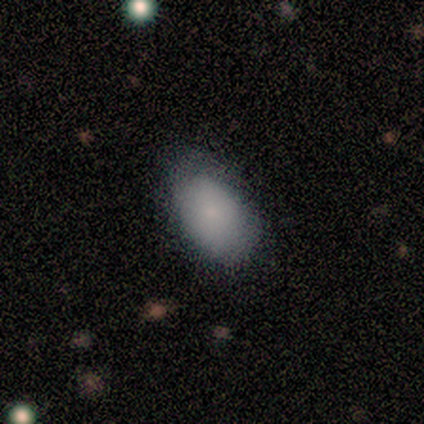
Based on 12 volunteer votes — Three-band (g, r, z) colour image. It shows a smooth galaxy with no disk features (83%) that is in between round and cigar-shaped (90%). Merging: minor disturbance (50%).